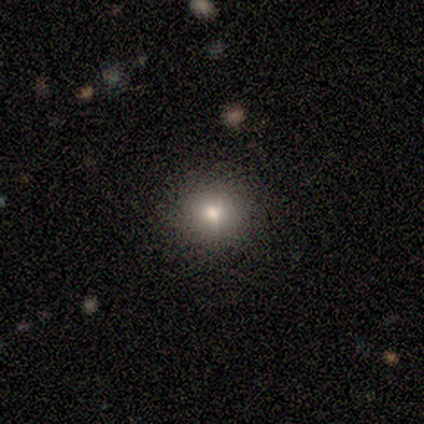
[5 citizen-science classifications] Smooth or featured? 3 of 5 (60%) said smooth. How rounded? 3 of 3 (100%) said round. Merging? 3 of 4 (75%) said none.